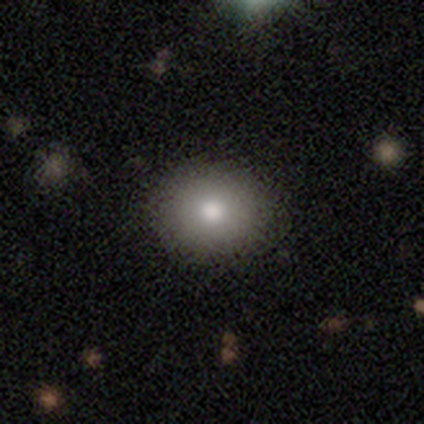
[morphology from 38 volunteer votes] Overall: smooth (79%). How rounded: round (63%; in between 37%). Merging: none (70%).